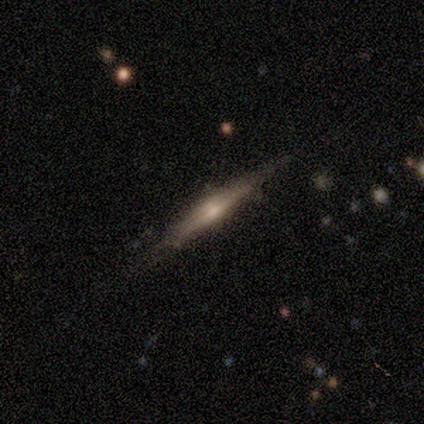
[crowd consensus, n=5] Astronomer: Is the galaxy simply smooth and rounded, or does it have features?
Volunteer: featured or disk — 60%.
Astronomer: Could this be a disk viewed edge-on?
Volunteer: yes — 100%.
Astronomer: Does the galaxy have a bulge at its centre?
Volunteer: none — 67%.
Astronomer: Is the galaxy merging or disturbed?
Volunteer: none — 75%.